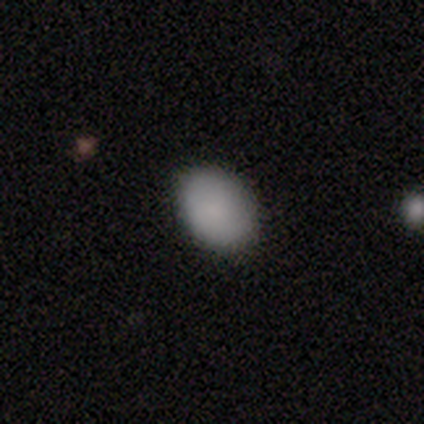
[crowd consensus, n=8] Smooth or featured? smooth (100%)
How rounded? in between (100%)
Merging? none (100%)